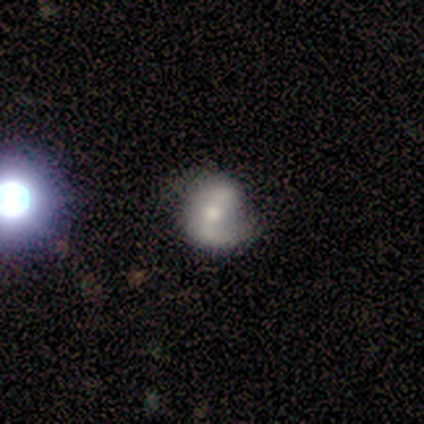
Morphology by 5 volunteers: featured or disk 80%, smooth 20%, star or artifact 0%. Down the decision tree: edge-on disk — no (100%); bar — weak (75%); spiral arms — yes (75%); spiral arm count — 2 (67%); spiral winding — tight (33%, tied with medium and loose); bulge size — moderate (100%); merging — none (60%).